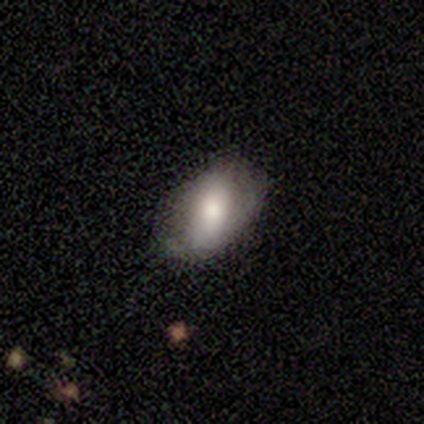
This appears to be a smooth galaxy with no disk features (55%) that is in between round and cigar-shaped (86%). Merging: none (62%).